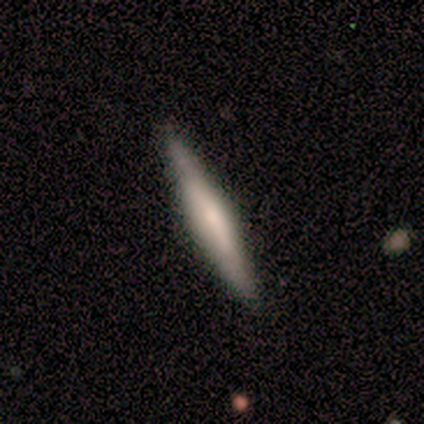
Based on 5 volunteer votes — smooth_or_featured: featured or disk (p=0.80) [alt: smooth p=0.20]
disk_edge_on: yes (p=1.00)
edge_on_bulge: boxy (p=0.50) [tied with: rounded p=0.50]
merging: none (p=1.00)